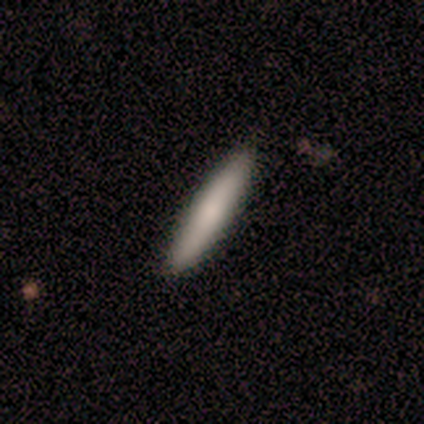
Overall: smooth (50%; featured or disk 25%). How rounded: cigar-shaped (100%). Merging: none (100%).